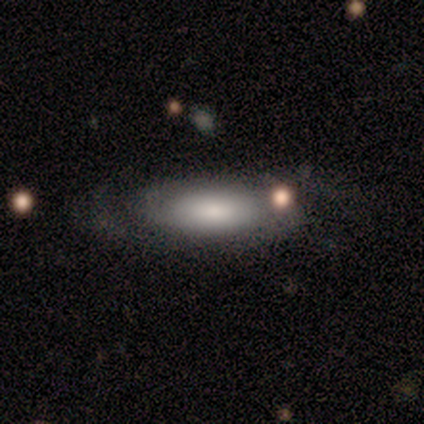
This is possibly a smooth galaxy (50%, tied with featured or disk). How rounded: possibly round (50%, tied with in between). Merging: possibly none (50%, tied with minor disturbance).